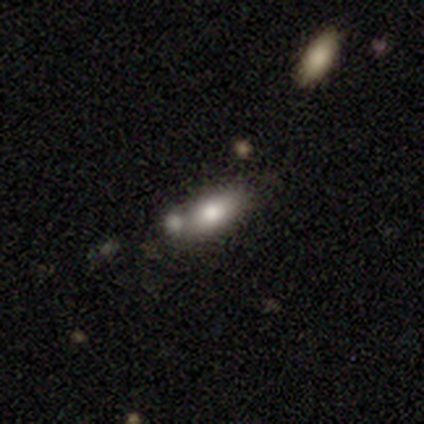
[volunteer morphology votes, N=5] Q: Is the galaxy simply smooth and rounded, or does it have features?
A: smooth — 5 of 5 (100%).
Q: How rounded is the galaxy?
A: in between — 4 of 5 (80%).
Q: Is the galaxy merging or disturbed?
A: none — 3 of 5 (60%).